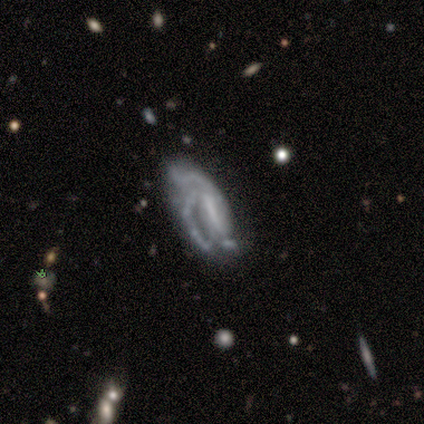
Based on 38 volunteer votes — Volunteers were most divided on "bar": strong: 45%, no: 41%, weak: 14%. Remaining: edge-on disk — no (88%); smooth or featured — featured or disk (87%); spiral arms — yes (69%); bulge size — none (59%); spiral winding — medium (55%); merging — none (40%); spiral arm count — 2 (40%).